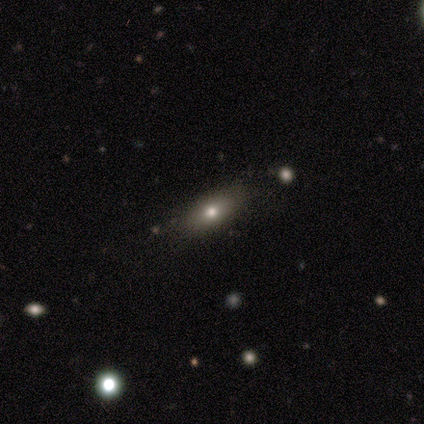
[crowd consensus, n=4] Smooth or featured? 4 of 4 (100%) said smooth. How rounded? 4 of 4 (100%) said in between. Merging? 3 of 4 (75%) said none.